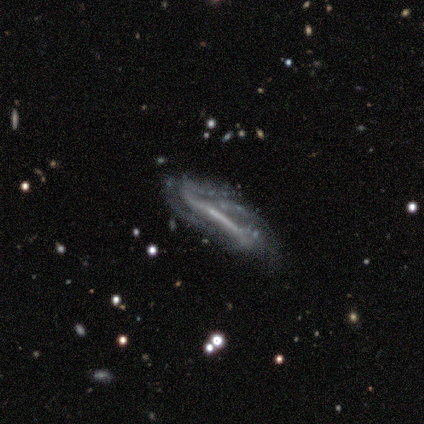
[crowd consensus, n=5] A featured or disk galaxy (80%) with a strong bar (67%), medium (50%, tied with loose) spiral arms (67%) and no central bulge (67%). Merging: none (50%, tied with major disturbance).